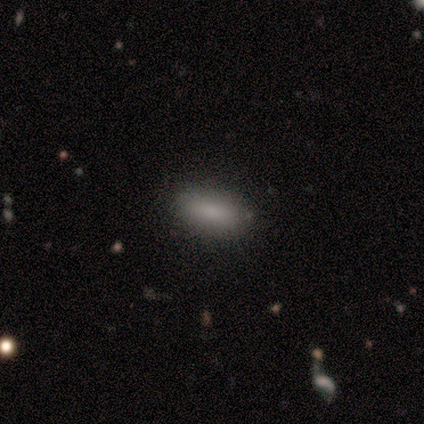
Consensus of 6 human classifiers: A smooth galaxy with no disk features (67%) that is in between round and cigar-shaped (75%). Merging: none (83%).